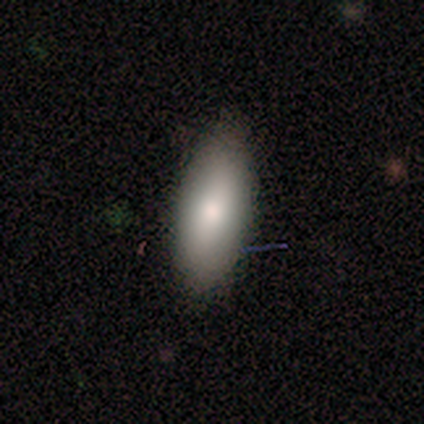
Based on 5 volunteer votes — Smooth or featured? 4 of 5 (80%) said smooth. How rounded? 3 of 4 (75%) said in between. Merging? 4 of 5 (80%) said none.